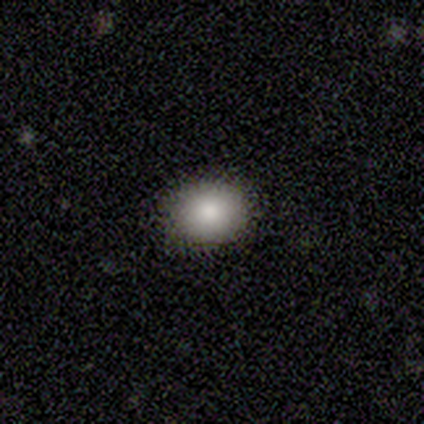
smooth-or-featured: smooth: 100% | featured or disk: 0% | star or artifact: 0%
  how-rounded: round: 50% (tied) | in between: 50% (tied) | cigar-shaped: 0%
  merging: none: 100% | minor disturbance: 0% | major disturbance: 0% | merger: 0%